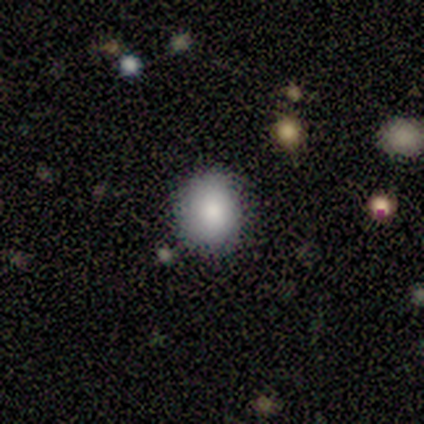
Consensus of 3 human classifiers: A smooth galaxy with no disk features (67%) that is round (100%). Merging: none (100%).